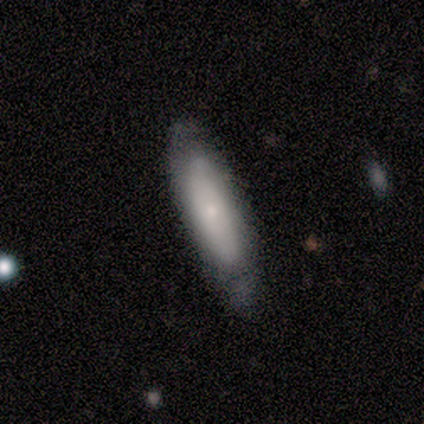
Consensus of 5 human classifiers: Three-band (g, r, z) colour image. It shows a smooth galaxy with no disk features (100%) that is cigar-shaped (60%). Merging: none (100%).